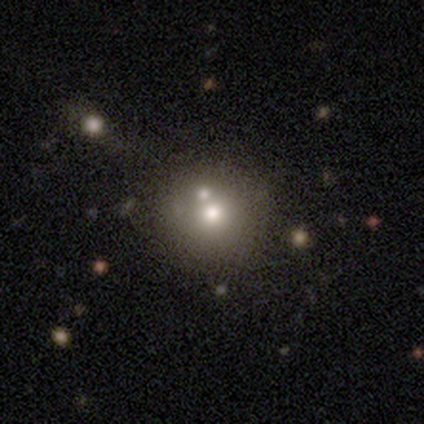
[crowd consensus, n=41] A smooth galaxy with no disk features (59%) that is round (96%).

Vote fractions:
- Smooth or featured? smooth: 59% / star or artifact: 24% / featured or disk: 17%
- How rounded? round: 96% / in between: 4% / cigar-shaped: 0%
- Merging? none: 74% / merger: 23% / major disturbance: 3% / minor disturbance: 0%